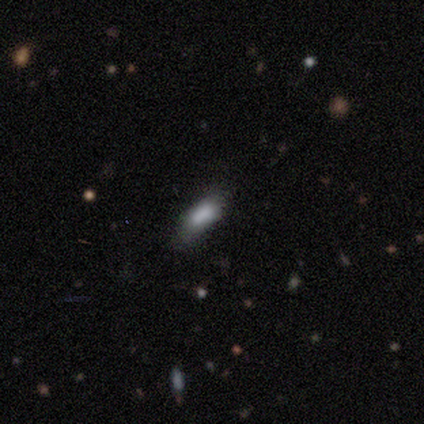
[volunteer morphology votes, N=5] smooth 40% (tied), featured or disk 40% (tied), star or artifact 20%. Down the decision tree: how rounded — in between (50%, tied with cigar-shaped); merging — none (75%).